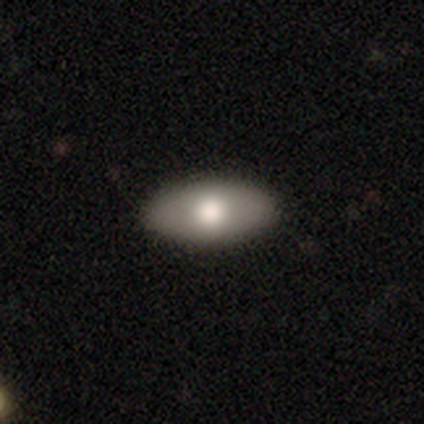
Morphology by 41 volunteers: type=smooth (83%); roundness=in between (91%); merging=none (89%).